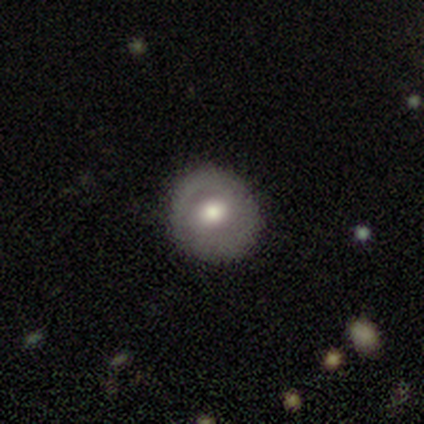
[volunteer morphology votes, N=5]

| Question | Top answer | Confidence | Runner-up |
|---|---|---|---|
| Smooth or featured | featured or disk | 60% | smooth (40%) |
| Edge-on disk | no | 100% | — |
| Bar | no | 67% | weak (33%) |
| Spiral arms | no | 100% | — |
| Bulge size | moderate | 100% | — |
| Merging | none | 80% | minor disturbance (20%) |